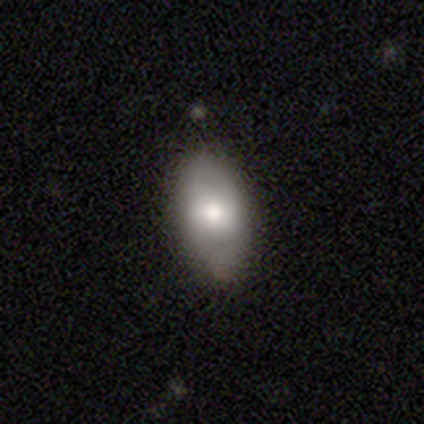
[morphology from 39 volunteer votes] Overall: smooth (51%; featured or disk 44%). How rounded: in between (95%). Merging: none (62%).